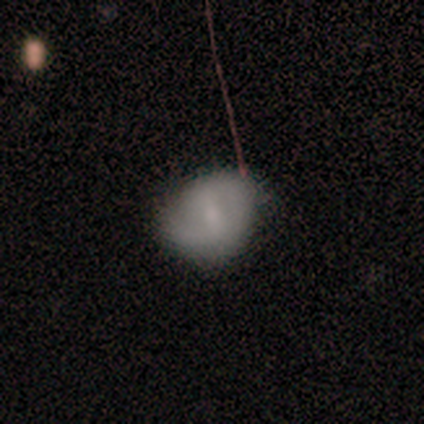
A featured or disk galaxy (60%) with a strong bar (67%), 2 (50%, tied with more than 4) tight (50%, tied with medium) spiral arms (67%) and a small central bulge (67%).

Vote fractions:
- Smooth or featured? featured or disk: 60% / smooth: 20% / star or artifact: 20%
- Edge-on disk? no: 100% / yes: 0%
- Bar? strong: 67% / weak: 33% / no: 0%
- Spiral arms? yes: 67% / no: 33%
- Spiral winding? tight: 50% (tied) / medium: 50% (tied) / loose: 0%
- Spiral arm count? 2: 50% (tied) / more than 4: 50% (tied) / 1: 0% / 3: 0% / 4: 0% / can't tell: 0%
- Bulge size? small: 67% / moderate: 33% / dominant: 0% / large: 0% / none: 0%
- Merging? none: 75% / minor disturbance: 25% / major disturbance: 0% / merger: 0%